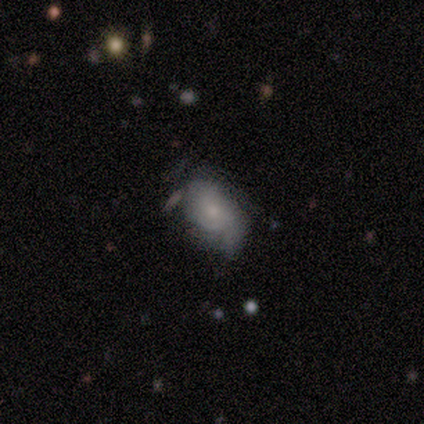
This appears to be a featured or disk galaxy (80%) with no bar (100%), tight (67%) spiral arms (75%) and a small central bulge (75%). Merging: none (100%).